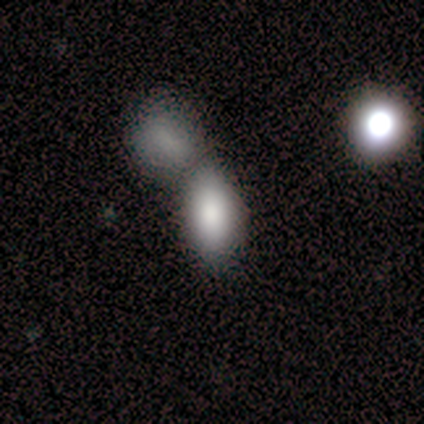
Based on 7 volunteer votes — smooth-or-featured: smooth: 86% | featured or disk: 14% | star or artifact: 0%
  how-rounded: in between: 100% | round: 0% | cigar-shaped: 0%
  merging: merger: 57% | none: 43% | minor disturbance: 0% | major disturbance: 0%